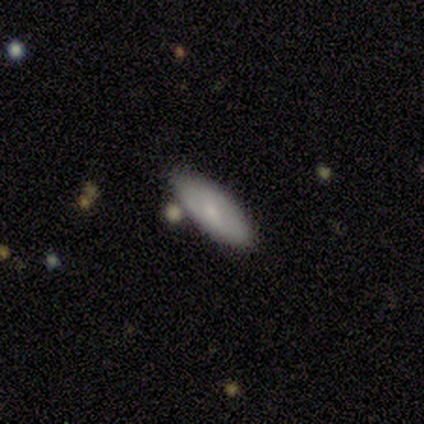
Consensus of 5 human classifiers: smooth_or_featured: smooth (p=0.60) [alt: featured or disk p=0.40]
how_rounded: in between (p=1.00)
merging: none (p=1.00)